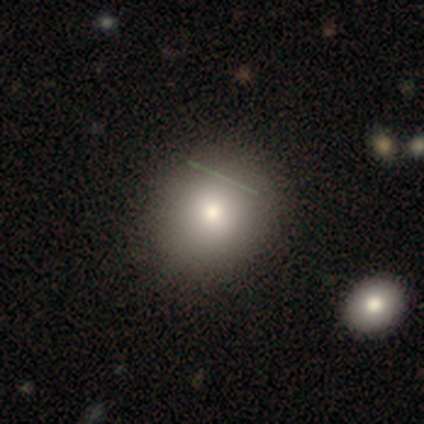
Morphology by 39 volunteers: A smooth galaxy with no disk features (90%) that is round (83%).

Vote fractions:
- Smooth or featured? smooth: 90% / featured or disk: 8% / star or artifact: 3%
- How rounded? round: 83% / in between: 17% / cigar-shaped: 0%
- Merging? none: 50% / merger: 5% / minor disturbance: 3% / major disturbance: 3%